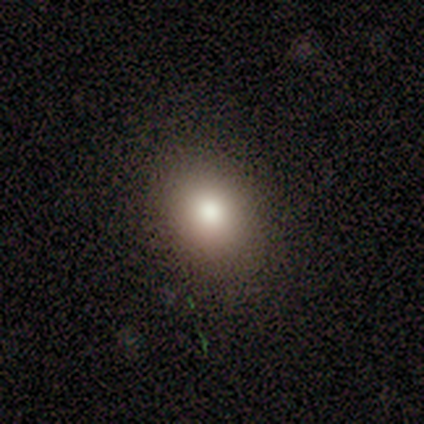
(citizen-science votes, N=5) Smooth or featured?
  - smooth: 60% *
  - featured or disk: 20%
  - star or artifact: 20%
How rounded?
  - round: 67% *
  - in between: 33%
  - cigar-shaped: 0%
Merging?
  - none: 100% *
  - minor disturbance: 0%
  - major disturbance: 0%
  - merger: 0%